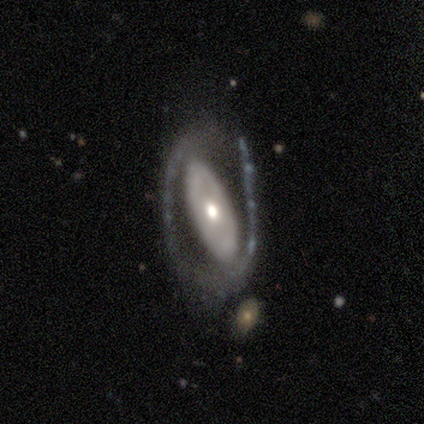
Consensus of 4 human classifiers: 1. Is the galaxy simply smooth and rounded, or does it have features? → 100% featured or disk, 0% smooth, 0% star or artifact.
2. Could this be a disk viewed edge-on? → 100% no, 0% yes.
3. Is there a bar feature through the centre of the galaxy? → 75% no, 25% strong, 0% weak.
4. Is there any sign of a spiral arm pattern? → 100% no, 0% yes.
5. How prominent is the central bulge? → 100% moderate, 0% dominant, 0% large, 0% small, 0% none.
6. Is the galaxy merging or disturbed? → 50% none (tied), 50% major disturbance (tied), 0% minor disturbance, 0% merger.